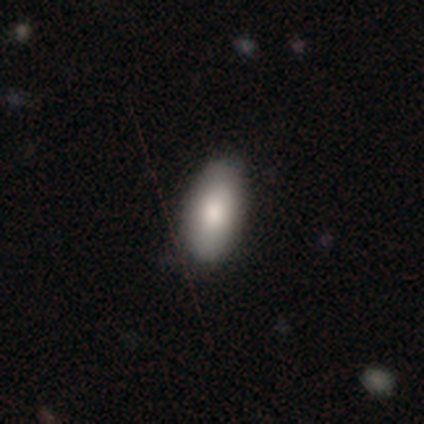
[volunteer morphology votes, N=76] type=smooth (84%); roundness=in between (97%); merging=none (41%).